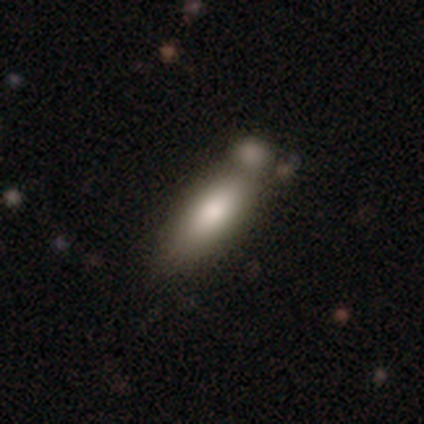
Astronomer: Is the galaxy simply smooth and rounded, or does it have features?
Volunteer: smooth — 83%.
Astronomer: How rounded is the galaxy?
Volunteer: cigar-shaped — 60% (runner-up: in between, 40%).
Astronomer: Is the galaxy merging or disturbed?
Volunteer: none — 50% (runner-up: merger, 33%).